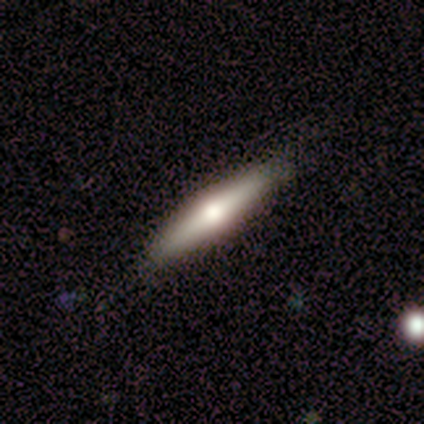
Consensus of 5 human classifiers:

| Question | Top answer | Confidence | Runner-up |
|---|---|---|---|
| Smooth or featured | featured or disk | 60% | smooth (20%) |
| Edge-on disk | yes | 100% | — |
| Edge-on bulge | rounded | 100% | — |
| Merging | none | 75% | minor disturbance (25%) |